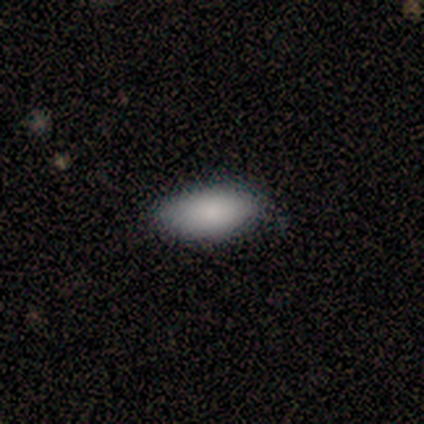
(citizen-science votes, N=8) Smooth or featured? 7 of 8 (88%) said smooth. How rounded? 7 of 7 (100%) said in between. Merging? 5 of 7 (71%) said none.